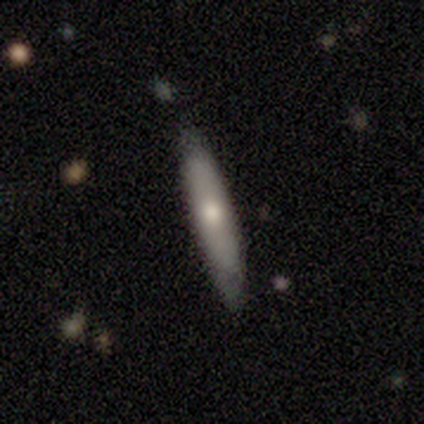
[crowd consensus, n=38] Smooth or featured: smooth — 58% (featured or disk — 39%)
How rounded: cigar-shaped — 86% (in between — 9%)
Merging: none — 81% (minor disturbance — 14%)